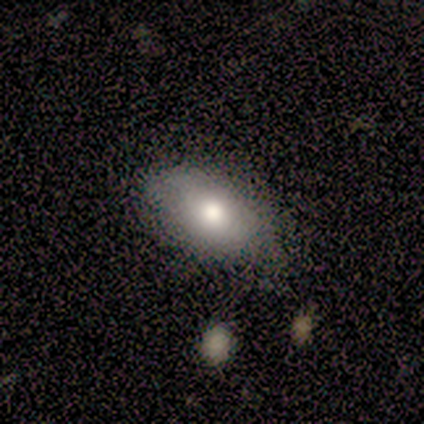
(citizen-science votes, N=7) This is clearly a smooth galaxy (86%). How rounded: clearly in between (100%). Merging: clearly none (100%).